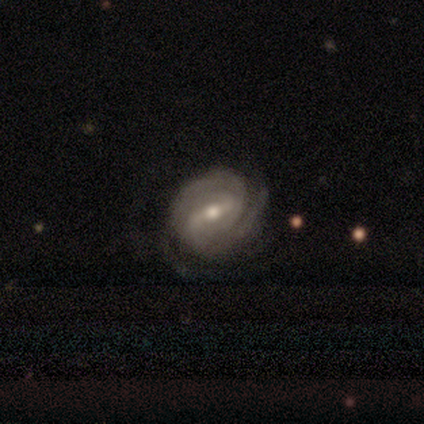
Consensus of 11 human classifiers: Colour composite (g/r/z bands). It shows a featured or disk galaxy (73%) with a strong bar (71%), 2 (43%) tight (71%) spiral arms (100%) and a moderate central bulge (86%). Merging: none (82%).